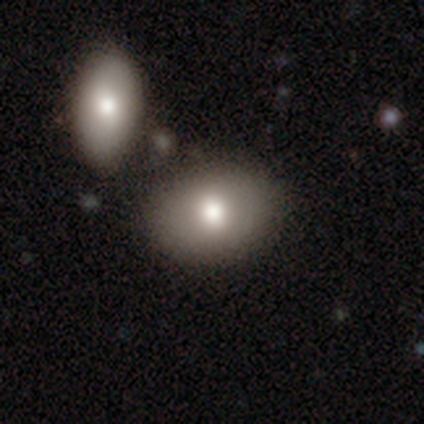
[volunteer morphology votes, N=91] Overall: smooth (74%). How rounded: in between (73%). Merging: none (56%; merger 21%).